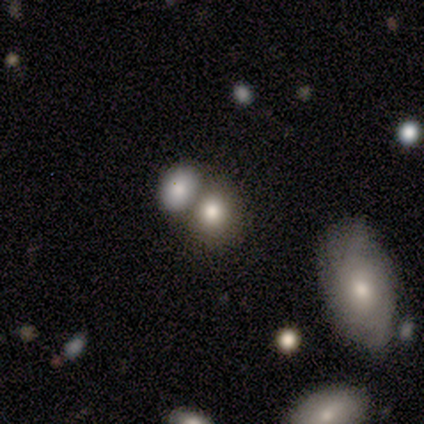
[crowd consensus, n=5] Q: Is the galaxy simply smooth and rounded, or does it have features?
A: smooth — 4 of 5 (80%).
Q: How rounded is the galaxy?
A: round — 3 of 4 (75%).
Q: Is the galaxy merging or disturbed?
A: merger — 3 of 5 (60%).